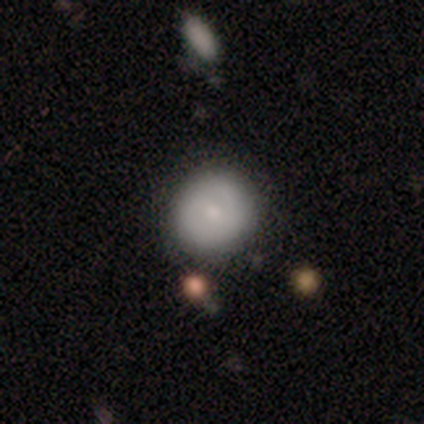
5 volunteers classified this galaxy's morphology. smooth_or_featured: smooth (p=0.60) [alt: featured or disk p=0.40]
how_rounded: round (p=1.00)
merging: none (p=1.00)